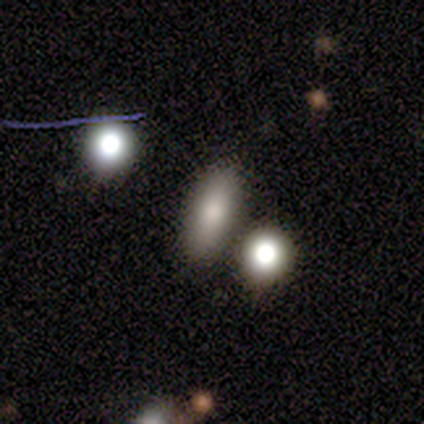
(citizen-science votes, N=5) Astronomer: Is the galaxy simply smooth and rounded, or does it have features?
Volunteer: smooth — 100%.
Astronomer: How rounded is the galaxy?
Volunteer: in between — 40%, tied with cigar-shaped at 40%.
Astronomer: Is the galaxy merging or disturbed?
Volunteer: none — 80%.